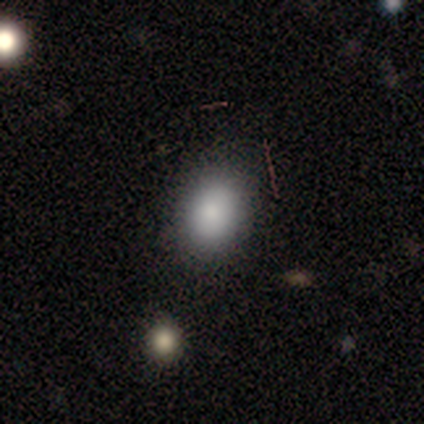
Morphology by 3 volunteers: A smooth galaxy with no disk features (100%) that is in between round and cigar-shaped (67%).

Vote fractions:
- Smooth or featured? smooth: 100% / featured or disk: 0% / star or artifact: 0%
- How rounded? in between: 67% / round: 33% / cigar-shaped: 0%
- Merging? none: 67% / minor disturbance: 33% / major disturbance: 0% / merger: 0%